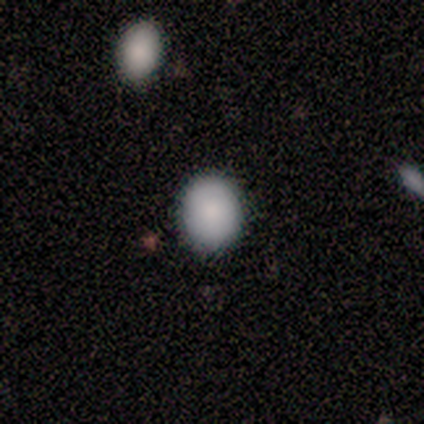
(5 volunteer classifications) Smooth or featured: smooth — 60% (star or artifact — 40%)
How rounded: in between — 67% (round — 33%)
Merging: none — 100%